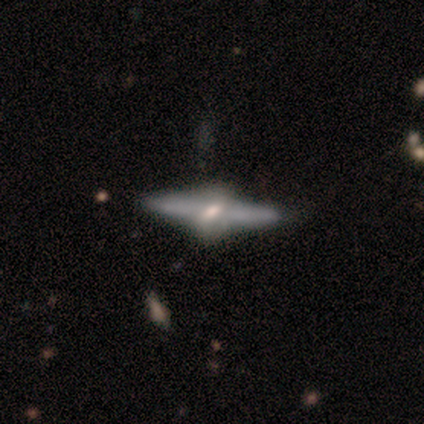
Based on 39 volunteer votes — A featured or disk galaxy (90%) viewed edge-on (91%) with a rounded central bulge (88%). Merging: none (61%).